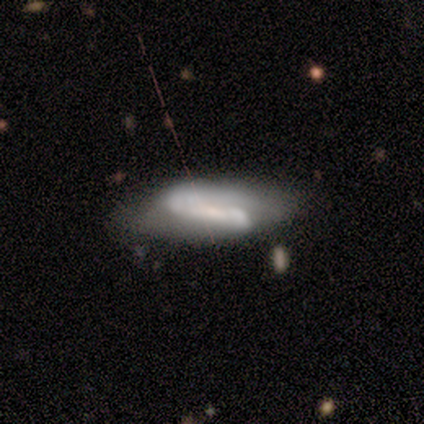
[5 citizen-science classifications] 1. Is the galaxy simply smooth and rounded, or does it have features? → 80% featured or disk, 20% smooth, 0% star or artifact.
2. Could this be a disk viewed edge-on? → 100% no, 0% yes.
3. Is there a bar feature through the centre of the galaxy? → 50% strong (tied), 50% no (tied), 0% weak.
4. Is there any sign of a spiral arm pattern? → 100% yes, 0% no.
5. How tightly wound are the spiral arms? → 75% loose, 25% medium, 0% tight.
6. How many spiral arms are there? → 50% 1, 25% 2, 25% can't tell, 0% 3, 0% 4, 0% more than 4.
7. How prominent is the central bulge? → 25% dominant (tied), 25% moderate (tied), 25% small (tied), 25% none (tied), 0% large.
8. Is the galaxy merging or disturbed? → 80% none, 20% minor disturbance, 0% major disturbance, 0% merger.